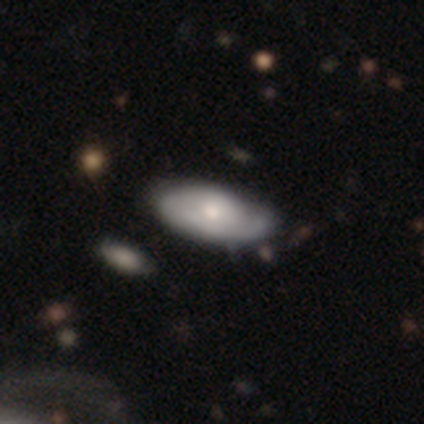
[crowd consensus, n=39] smooth_or_featured: featured or disk (p=0.51) [alt: smooth p=0.46]
disk_edge_on: no (p=1.00)
bar: no (p=0.75) [alt: weak p=0.25]
has_spiral_arms: yes (p=0.85) [alt: no p=0.15]
spiral_winding: tight (p=0.65) [alt: medium p=0.35]
spiral_arm_count: 1 (p=0.47) [alt: 2 p=0.29]
bulge_size: moderate (p=0.65) [alt: small p=0.30]
merging: none (p=0.42) [alt: minor disturbance p=0.26]